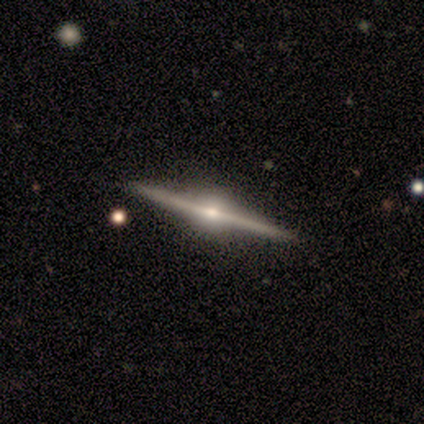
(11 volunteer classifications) A featured or disk galaxy (100%) viewed edge-on (100%) with a rounded central bulge (91%).

Vote fractions:
- Smooth or featured? featured or disk: 100% / smooth: 0% / star or artifact: 0%
- Edge-on disk? yes: 100% / no: 0%
- Edge-on bulge? rounded: 91% / none: 9% / boxy: 0%
- Merging? none: 100% / minor disturbance: 0% / major disturbance: 0% / merger: 0%